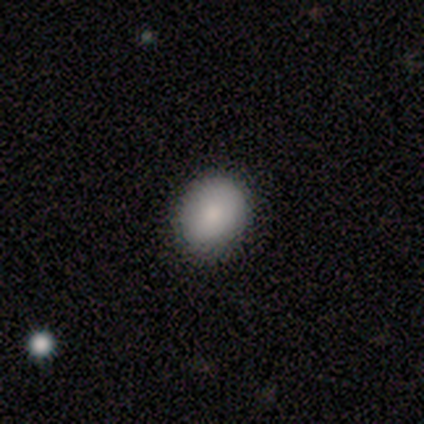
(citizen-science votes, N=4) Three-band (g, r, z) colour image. It shows a smooth galaxy with no disk features (100%) that is round (100%). Merging: none (75%).